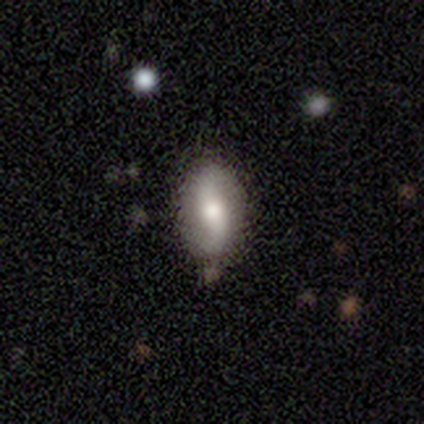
Overall: featured or disk (60%; smooth 40%). Edge-on disk: no (67%; yes 33%). Bar: weak (50%, tied with no). Spiral arms: yes (100%). Spiral arm count: 2 (100%). Spiral winding: loose (100%). Bulge size: large (50%, tied with small). Merging: none (80%).